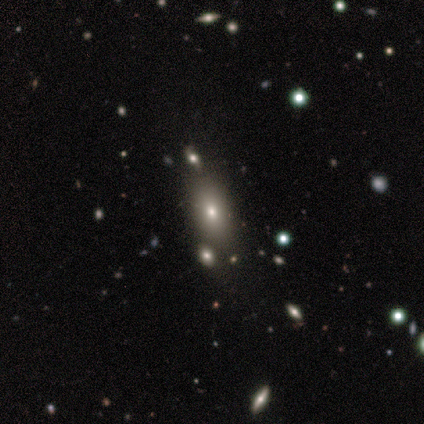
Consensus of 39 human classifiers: Smooth or featured? 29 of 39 (74%) said smooth. How rounded? 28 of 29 (97%) said in between. Merging? 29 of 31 (94%) said none.